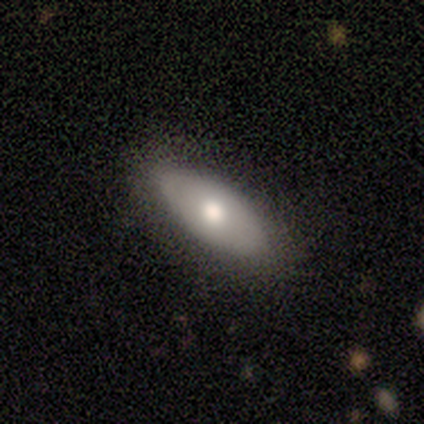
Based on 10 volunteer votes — Smooth or featured?
  - smooth: 80% *
  - featured or disk: 20%
  - star or artifact: 0%
How rounded?
  - in between: 88% *
  - cigar-shaped: 12%
  - round: 0%
Merging?
  - none: 80% *
  - minor disturbance: 20%
  - major disturbance: 0%
  - merger: 0%